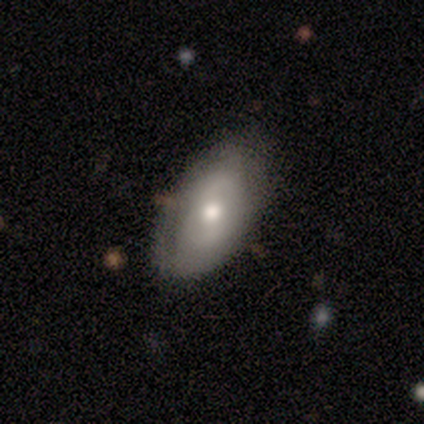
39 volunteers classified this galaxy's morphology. A smooth galaxy with no disk features (54%) that is in between round and cigar-shaped (95%).

Vote fractions:
- Smooth or featured? smooth: 54% / featured or disk: 44% / star or artifact: 3%
- How rounded? in between: 95% / cigar-shaped: 5% / round: 0%
- Merging? none: 84% / minor disturbance: 16% / major disturbance: 0% / merger: 0%